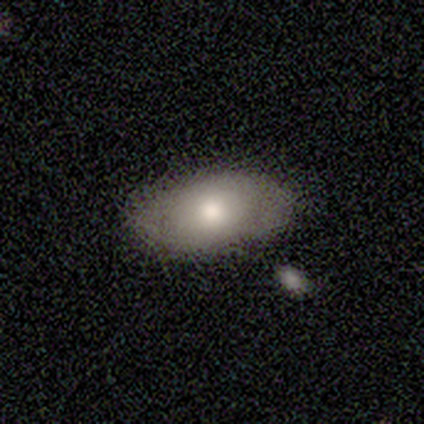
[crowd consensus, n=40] Smooth or featured?
  - smooth: 70% *
  - featured or disk: 15%
  - star or artifact: 15%
How rounded?
  - in between: 93% *
  - round: 7%
  - cigar-shaped: 0%
Merging?
  - none: 82% *
  - minor disturbance: 9%
  - merger: 6%
  - major disturbance: 3%